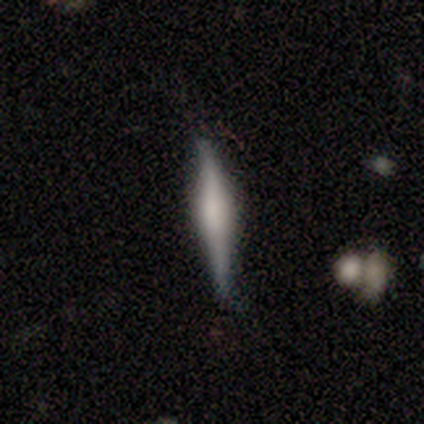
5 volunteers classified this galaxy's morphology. Smooth or featured: featured or disk — 60% (smooth — 40%)
Edge-on disk: yes — 100%
Edge-on bulge: boxy — 67% (rounded — 33%)
Merging: none — 80% (minor disturbance — 20%)